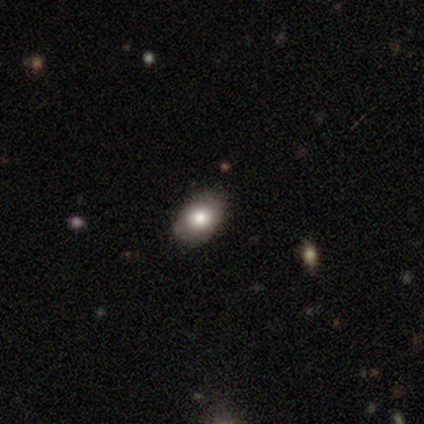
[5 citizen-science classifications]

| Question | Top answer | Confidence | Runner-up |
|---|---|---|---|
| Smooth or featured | smooth | 80% | star or artifact (20%) |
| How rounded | round | 50% | tied: in between (50%) |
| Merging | none | 75% | minor disturbance (25%) |